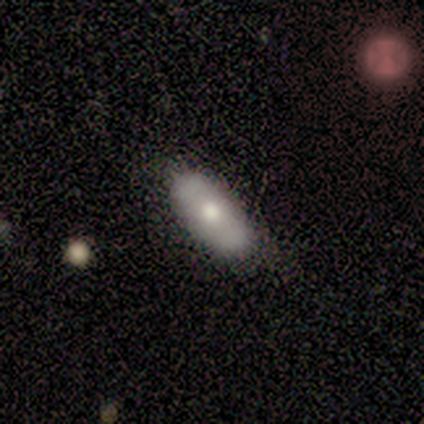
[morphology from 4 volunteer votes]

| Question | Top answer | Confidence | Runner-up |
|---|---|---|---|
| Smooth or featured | smooth | 100% | — |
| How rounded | in between | 100% | — |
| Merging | none | 75% | minor disturbance (25%) |